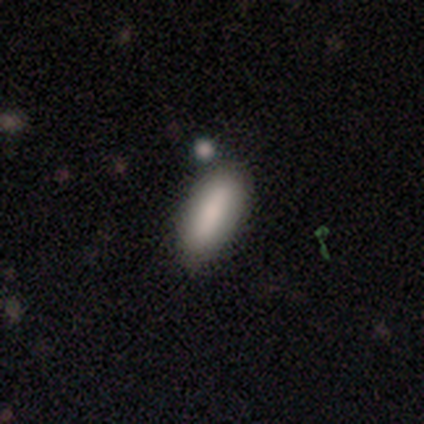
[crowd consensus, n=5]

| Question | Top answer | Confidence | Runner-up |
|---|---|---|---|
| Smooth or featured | smooth | 60% | featured or disk (20%) |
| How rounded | in between | 100% | — |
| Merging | none | 75% | minor disturbance (25%) |